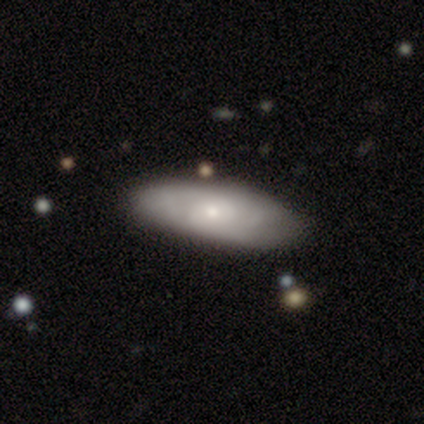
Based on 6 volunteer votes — Overall: smooth (67%; featured or disk 33%). How rounded: in between (50%, tied with cigar-shaped). Merging: none (67%; minor disturbance 33%).